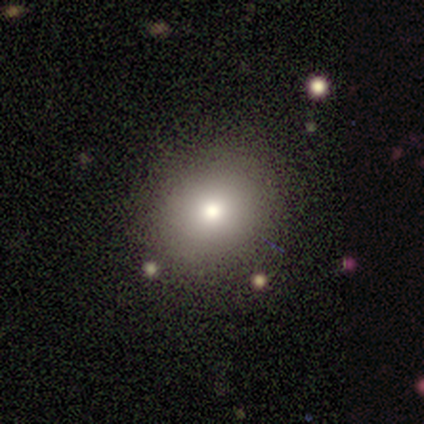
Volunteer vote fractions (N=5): smooth-or-featured: smooth: 80% | featured or disk: 20% | star or artifact: 0%
  how-rounded: round: 100% | in between: 0% | cigar-shaped: 0%
  merging: none: 80% | major disturbance: 20% | minor disturbance: 0% | merger: 0%